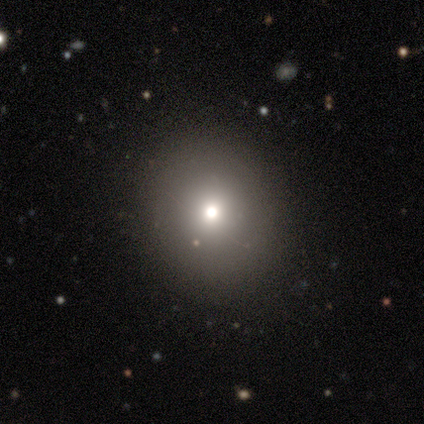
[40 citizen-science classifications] A smooth galaxy with no disk features (62%) that is round (96%). Merging: none (90%).